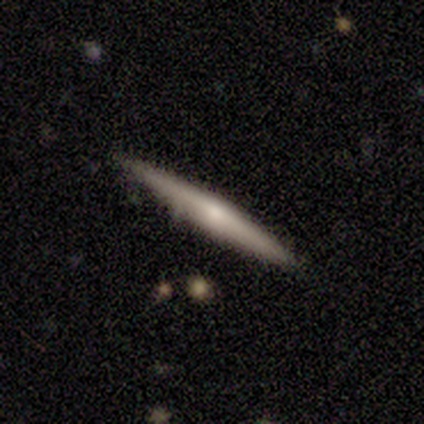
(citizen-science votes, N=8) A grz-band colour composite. It shows a smooth galaxy with no disk features (50%, tied with featured or disk) that is cigar-shaped (100%). Merging: none (100%).